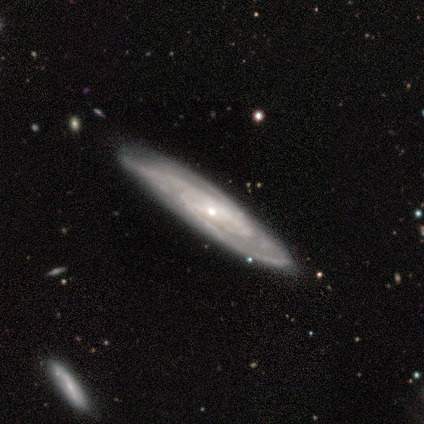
smooth-or-featured: featured or disk: 80% | smooth: 20% | star or artifact: 0%
  disk-edge-on: no: 75% | yes: 25%
    bar: weak: 67% | strong: 33% | no: 0%
    has-spiral-arms: yes: 100% | no: 0%
      spiral-winding: tight: 67% | medium: 33% | loose: 0%
      spiral-arm-count: can't tell: 67% | 3: 33% | 1: 0% | 2: 0% | 4: 0% | more than 4: 0%
    bulge-size: small: 67% | moderate: 33% | dominant: 0% | large: 0% | none: 0%
  merging: none: 100% | minor disturbance: 0% | major disturbance: 0% | merger: 0%